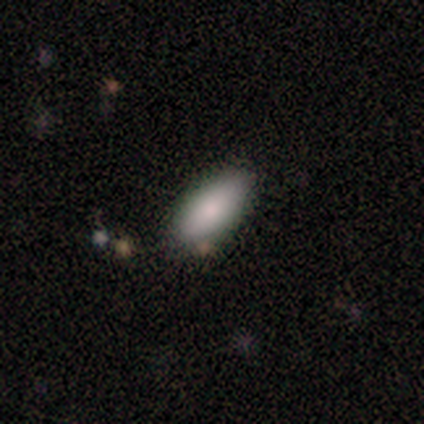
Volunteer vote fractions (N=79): This is clearly a smooth galaxy (90%). How rounded: clearly in between (80%). Merging: possibly none (46%).